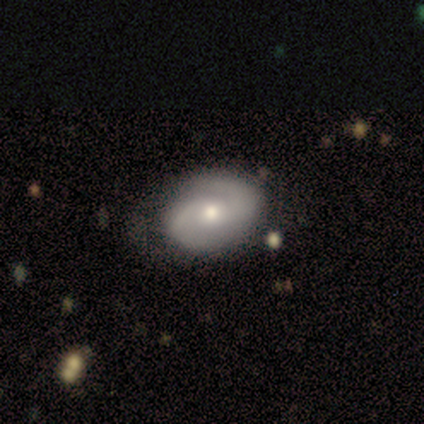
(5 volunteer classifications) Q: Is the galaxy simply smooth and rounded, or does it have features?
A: featured or disk — 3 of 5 (60%).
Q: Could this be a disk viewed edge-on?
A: no — 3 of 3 (100%).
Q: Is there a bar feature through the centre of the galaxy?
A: no — 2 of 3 (67%).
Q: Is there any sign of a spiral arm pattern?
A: yes — 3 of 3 (100%).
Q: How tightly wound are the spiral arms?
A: tight — 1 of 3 (33%, tied with medium and loose).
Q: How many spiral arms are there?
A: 2 — 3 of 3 (100%).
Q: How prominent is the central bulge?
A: moderate — 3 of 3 (100%).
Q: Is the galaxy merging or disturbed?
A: none — 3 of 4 (75%).